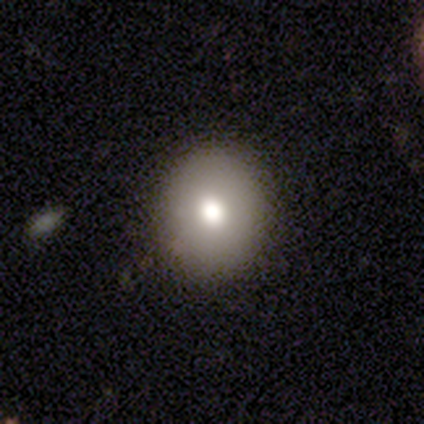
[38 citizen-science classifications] Smooth or featured?
  - smooth: 84% *
  - featured or disk: 11%
  - star or artifact: 5%
How rounded?
  - round: 75% *
  - in between: 25%
  - cigar-shaped: 0%
Merging?
  - none: 100% *
  - minor disturbance: 0%
  - major disturbance: 0%
  - merger: 0%